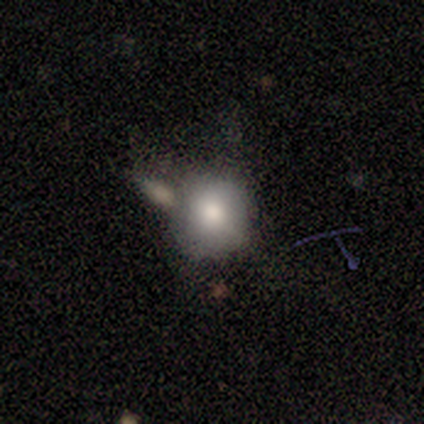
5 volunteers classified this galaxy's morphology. Smooth or featured? 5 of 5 (100%) said smooth. How rounded? 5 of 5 (100%) said round. Merging? 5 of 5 (100%) said none.